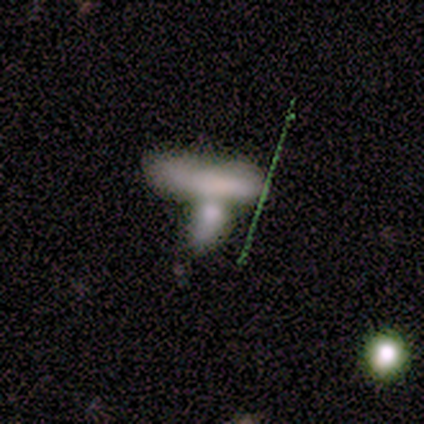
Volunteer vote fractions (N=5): Smooth or featured? 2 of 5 (40%, tied with star or artifact) said smooth. How rounded? 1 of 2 (50%, tied with cigar-shaped) said in between. Merging? 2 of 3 (67%) said merger.